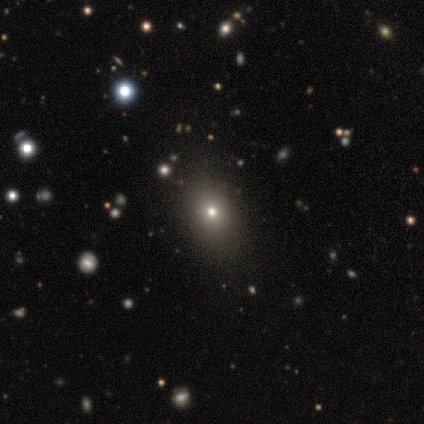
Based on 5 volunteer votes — Smooth or featured? smooth (80%)
How rounded? round (50%, tied with in between)
Merging? none (100%)